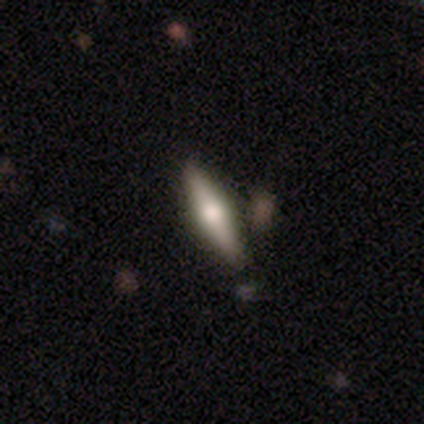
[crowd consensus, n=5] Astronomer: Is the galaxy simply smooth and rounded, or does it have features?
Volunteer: smooth — 80%.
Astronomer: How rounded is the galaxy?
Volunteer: cigar-shaped — 100%.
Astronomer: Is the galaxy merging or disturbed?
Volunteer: none — 100%.